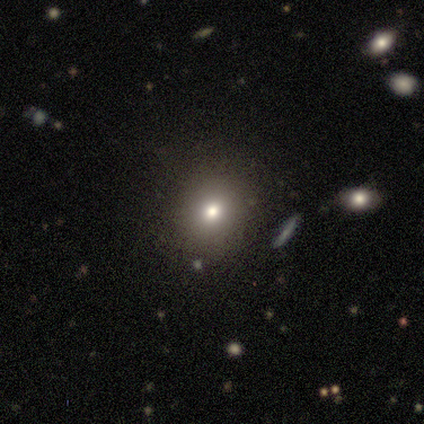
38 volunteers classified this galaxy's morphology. smooth_or_featured: smooth (p=0.71) [alt: star or artifact p=0.26]
how_rounded: round (p=0.85) [alt: in between p=0.15]
merging: none (p=0.93) [alt: major disturbance p=0.07]